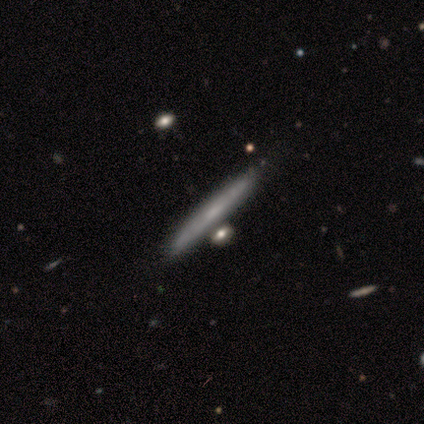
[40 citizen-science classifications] smooth 52%, featured or disk 48%, star or artifact 0%. Down the decision tree: how rounded — cigar-shaped (95%); merging — none (55%).